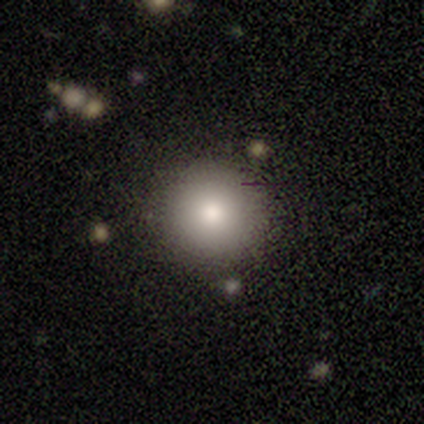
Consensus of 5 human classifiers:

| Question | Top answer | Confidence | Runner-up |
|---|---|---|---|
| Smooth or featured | star or artifact | 60% | smooth (40%) |